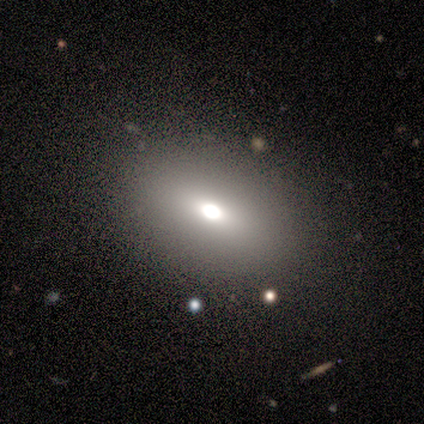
This appears to be a smooth galaxy with no disk features (71%) that is in between round and cigar-shaped (80%). Merging: none (86%).